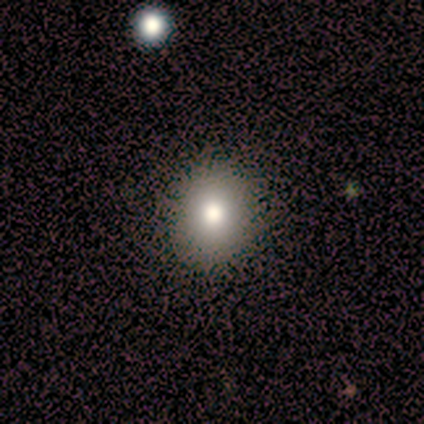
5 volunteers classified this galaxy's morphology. Smooth or featured? 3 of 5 (60%) said featured or disk. Edge-on disk? 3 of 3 (100%) said no. Bar? 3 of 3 (100%) said no. Spiral arms? 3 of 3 (100%) said no. Bulge size? 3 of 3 (100%) said moderate. Merging? 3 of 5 (60%) said none.